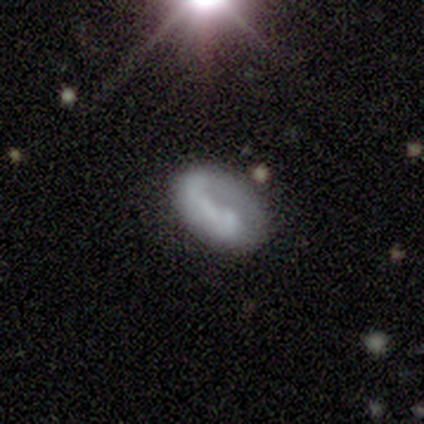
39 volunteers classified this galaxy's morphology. smooth-or-featured: featured or disk: 54% | smooth: 36% | star or artifact: 10%
  disk-edge-on: no: 90% | yes: 10%
    bar: no: 53% | weak: 26% | strong: 21%
    has-spiral-arms: yes: 53% | no: 47%
      spiral-winding: loose: 50% | tight: 30% | medium: 20%
      spiral-arm-count: 1: 70% | can't tell: 20% | 2: 10% | 3: 0% | 4: 0% | more than 4: 0%
    bulge-size: none: 68% | small: 16% | large: 11% | dominant: 5% | moderate: 0%
  merging: none: 37% | major disturbance: 34% | minor disturbance: 14% | merger: 14%